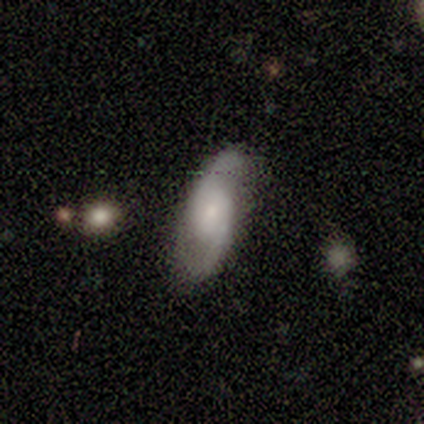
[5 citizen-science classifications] Smooth or featured? featured or disk (80%)
Edge-on disk? no (100%)
Bar? no (75%)
Spiral arms? yes (75%)
Spiral winding? medium (100%)
Spiral arm count? 2 (100%)
Bulge size? small (75%)
Merging? none (40%, tied with minor disturbance)